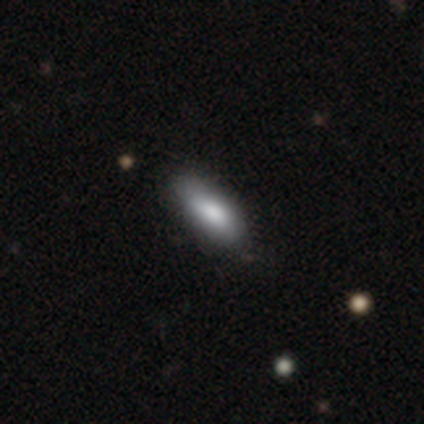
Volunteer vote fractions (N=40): This is likely a smooth galaxy (75%). How rounded: likely in between (70%). Merging: likely none (68%).